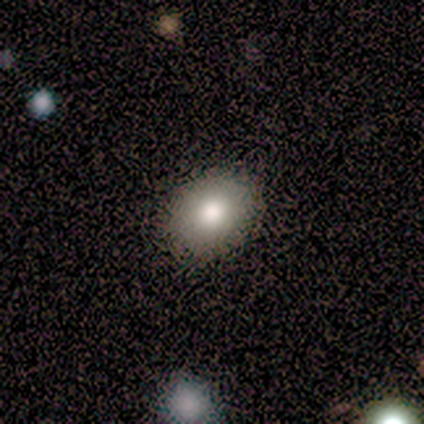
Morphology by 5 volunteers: Smooth or featured? 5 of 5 (100%) said smooth. How rounded? 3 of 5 (60%) said round. Merging? 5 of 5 (100%) said none.